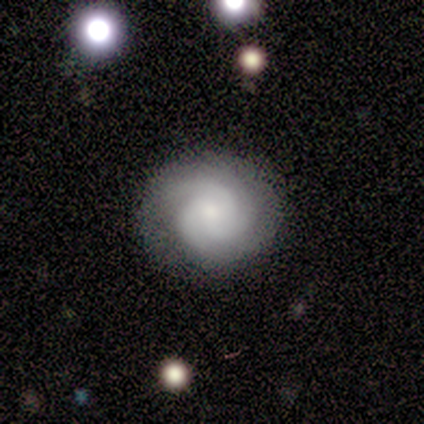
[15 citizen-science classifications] Smooth or featured? featured or disk (80%)
Edge-on disk? no (100%)
Bar? no (75%)
Spiral arms? yes (92%)
Spiral winding? tight (64%)
Spiral arm count? 3 (82%)
Bulge size? small (50%)
Merging? none (87%)